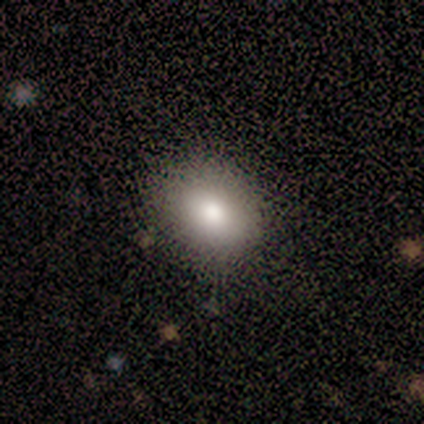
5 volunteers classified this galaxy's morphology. Volunteers were most divided on "how rounded": round: 80%, in between: 20%, cigar-shaped: 0%. More confident: smooth or featured — smooth (100%); merging — none (80%).